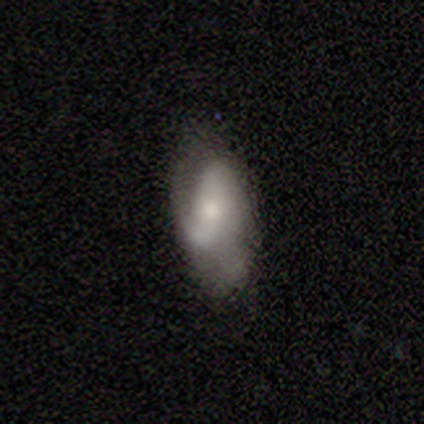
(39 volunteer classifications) Smooth or featured? 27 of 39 (69%) said featured or disk. Edge-on disk? 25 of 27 (93%) said no. Bar? 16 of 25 (64%) said no. Spiral arms? 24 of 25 (96%) said yes. Spiral winding? 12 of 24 (50%) said loose. Spiral arm count? 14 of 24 (58%) said 2. Bulge size? 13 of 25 (52%) said moderate. Merging? 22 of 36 (61%) said none.